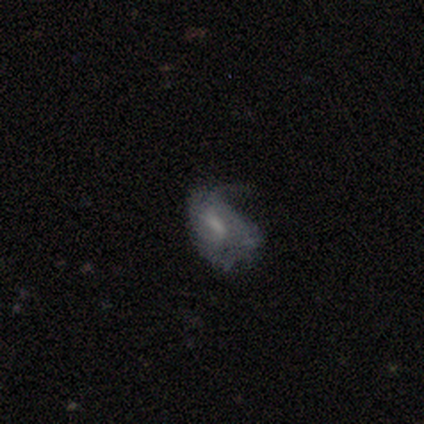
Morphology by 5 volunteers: A featured or disk galaxy (60%) with a strong bar (33%, tied with weak and no), no spiral arms (100%) and a small central bulge (100%). Merging: major disturbance (80%).